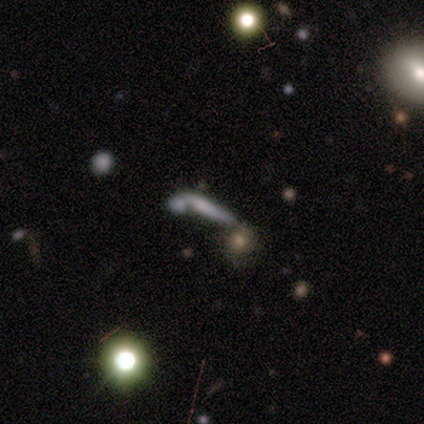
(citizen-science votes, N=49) This appears to be a smooth galaxy with no disk features (49%) that is cigar-shaped (79%). Merging: merger (47%).